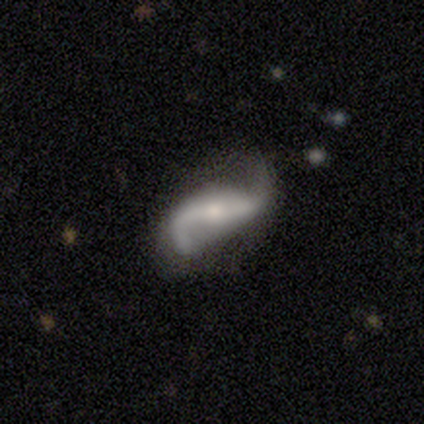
Morphology: type=featured or disk (86%); edge-on=no (95%); bar=strong (43%); spiral arms=yes (94%); winding=loose (85%); arm count=2 (97%); bulge=small (59%); merging=none (70%).